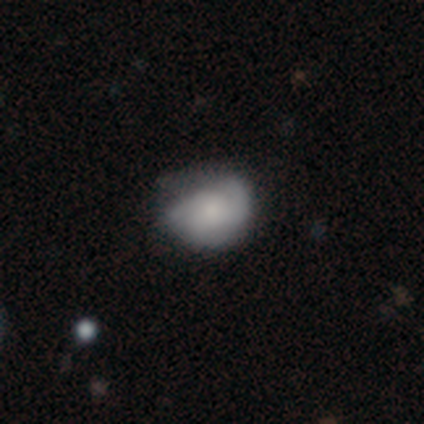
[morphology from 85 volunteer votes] Smooth or featured? 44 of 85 (52%) said smooth. How rounded? 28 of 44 (64%) said in between. Merging? 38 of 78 (49%) said none.